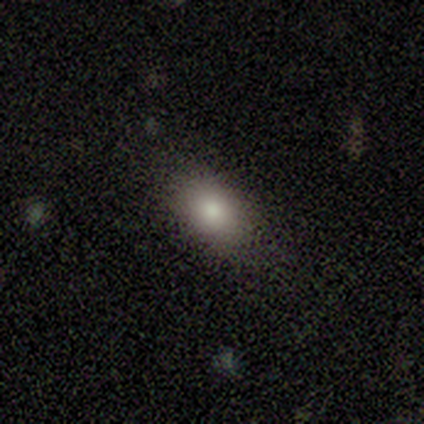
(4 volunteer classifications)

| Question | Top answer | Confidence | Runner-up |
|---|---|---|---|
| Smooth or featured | smooth | 100% | — |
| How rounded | in between | 100% | — |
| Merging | none | 100% | — |